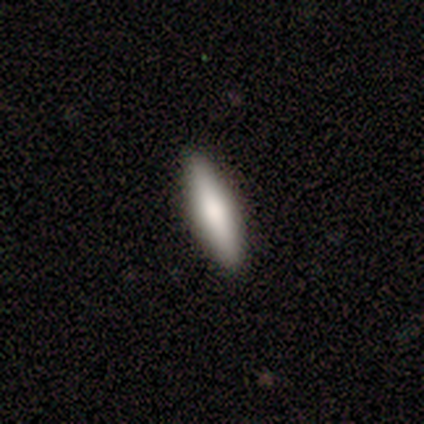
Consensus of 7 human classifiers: Smooth or featured?
  - smooth: 43% * (tied)
  - featured or disk: 43% * (tied)
  - star or artifact: 14%
How rounded?
  - cigar-shaped: 100% *
  - round: 0%
  - in between: 0%
Merging?
  - none: 100% *
  - minor disturbance: 0%
  - major disturbance: 0%
  - merger: 0%